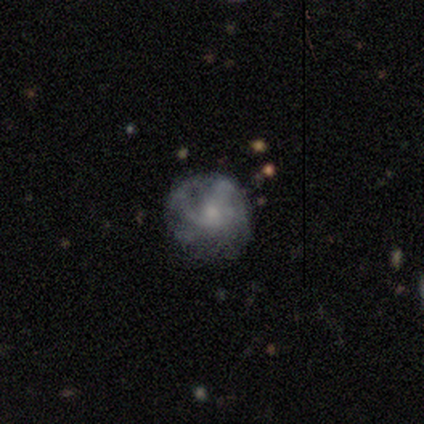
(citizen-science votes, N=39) Smooth or featured: featured or disk — 64% (smooth — 23%)
Edge-on disk: no — 96% (yes — 4%)
Bar: no — 83% (weak — 12%)
Spiral arms: yes — 75% (no — 25%)
Spiral winding: tight — 39% (tied with medium — 39%)
Spiral arm count: can't tell — 61% (1 — 17%)
Bulge size: small — 46% (moderate — 33%)
Merging: none — 62% (major disturbance — 21%)